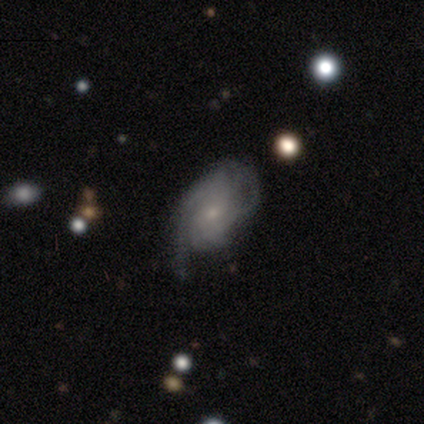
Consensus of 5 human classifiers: Smooth or featured? featured or disk (60%)
Edge-on disk? no (100%)
Bar? no (67%)
Spiral arms? yes (100%)
Spiral winding? tight (67%)
Spiral arm count? can't tell (67%)
Bulge size? small (100%)
Merging? none (40%, tied with major disturbance)